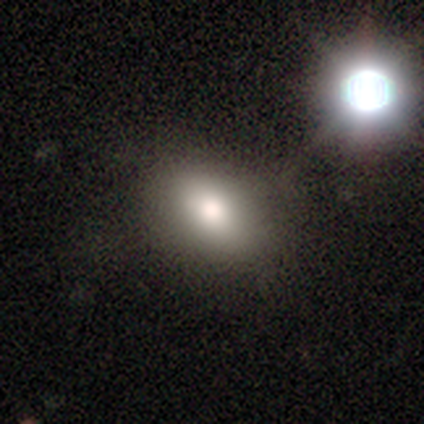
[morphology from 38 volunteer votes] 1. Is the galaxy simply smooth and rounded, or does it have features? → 58% smooth, 24% star or artifact, 18% featured or disk.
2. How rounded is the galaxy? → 86% in between, 9% round, 5% cigar-shaped.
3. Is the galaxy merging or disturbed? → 72% none, 14% minor disturbance, 10% major disturbance, 3% merger.